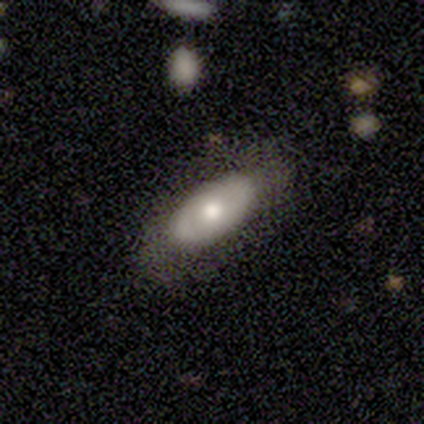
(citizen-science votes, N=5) smooth 60%, featured or disk 40%, star or artifact 0%. Down the decision tree: how rounded — in between (100%); merging — none (80%).